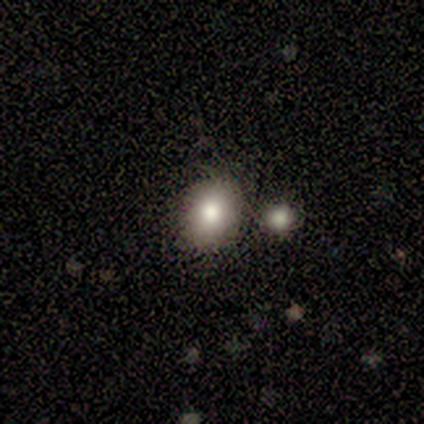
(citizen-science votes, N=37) Smooth or featured? smooth (73%)
How rounded? round (63%)
Merging? none (91%)